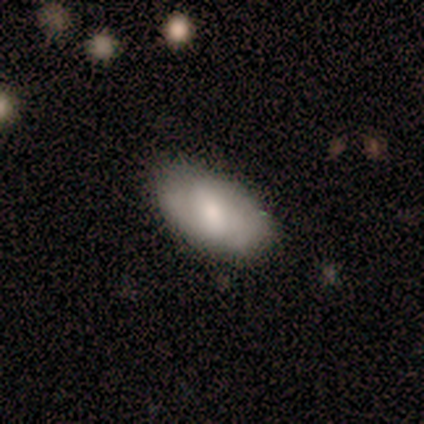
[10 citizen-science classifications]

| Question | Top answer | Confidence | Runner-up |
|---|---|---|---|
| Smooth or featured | smooth | 70% | featured or disk (20%) |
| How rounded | in between | 100% | — |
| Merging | none | 56% | minor disturbance (44%) |